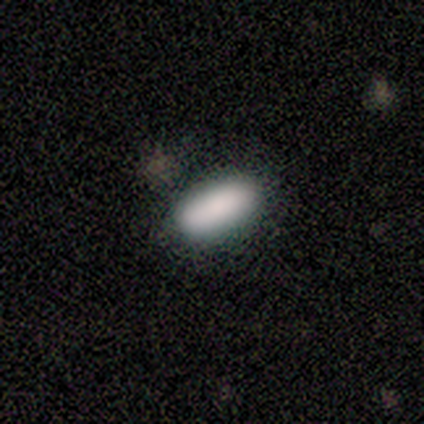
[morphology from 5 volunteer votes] type=smooth (100%); roundness=in between (80%); merging=none (100%).